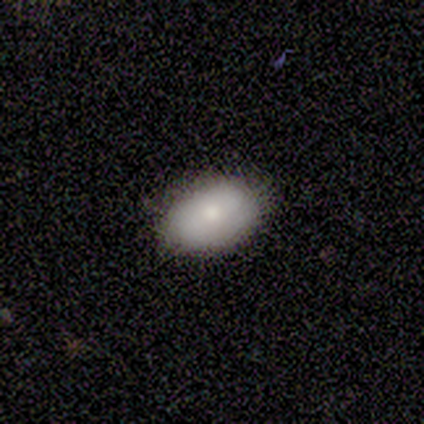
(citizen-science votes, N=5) This appears to be a smooth galaxy with no disk features (100%) that is in between round and cigar-shaped (100%). Merging: none (100%).